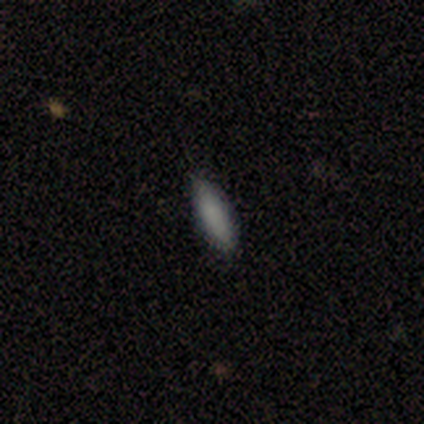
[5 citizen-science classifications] Morphology: type=smooth (100%); roundness=cigar-shaped (60%); merging=none (80%).